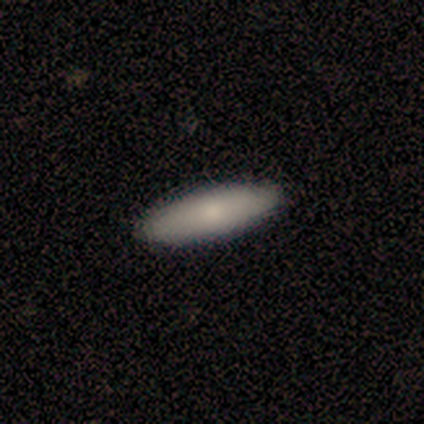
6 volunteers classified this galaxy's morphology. Q: Smooth or featured?
A: smooth (100%)
Q: How rounded?
A: cigar-shaped (67%); runner-up: in between (33%)
Q: Merging?
A: none (100%)